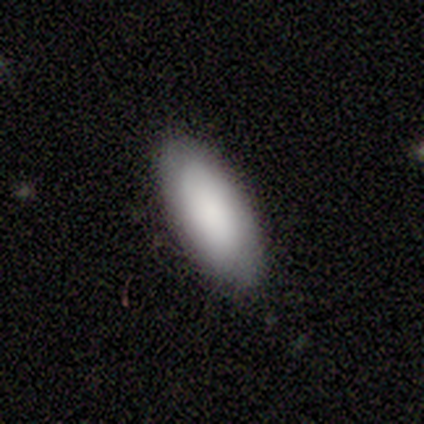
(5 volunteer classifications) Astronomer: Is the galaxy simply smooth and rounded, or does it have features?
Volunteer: smooth — 80%.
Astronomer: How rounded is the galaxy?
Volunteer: in between — 75%.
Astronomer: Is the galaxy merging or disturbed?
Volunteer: none — 60% (runner-up: minor disturbance, 40%).